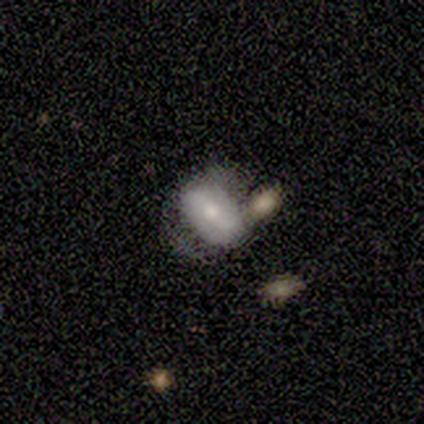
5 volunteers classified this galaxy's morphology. smooth_or_featured: smooth (p=0.60) [alt: featured or disk p=0.40]
how_rounded: in between (p=0.67) [alt: round p=0.33]
merging: merger (p=0.60) [alt: minor disturbance p=0.40]